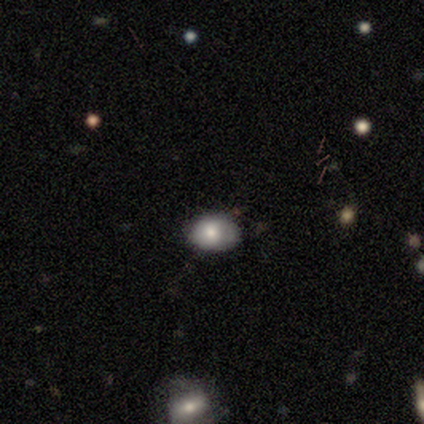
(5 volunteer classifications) smooth-or-featured: smooth: 40% (tied) | featured or disk: 40% (tied) | star or artifact: 20%
  how-rounded: in between: 100% | round: 0% | cigar-shaped: 0%
  merging: none: 50% (tied) | minor disturbance: 50% (tied) | major disturbance: 0% | merger: 0%